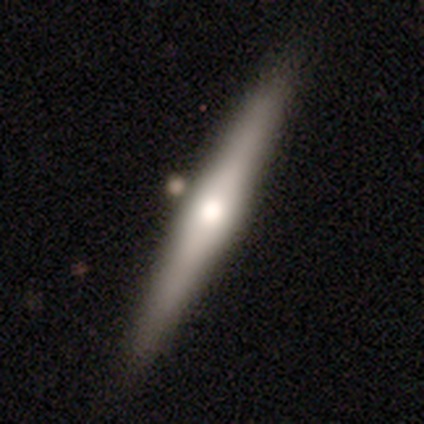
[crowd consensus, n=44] Smooth or featured: featured or disk — 50% (smooth — 41%)
Edge-on disk: yes — 100%
Edge-on bulge: rounded — 91% (boxy — 5%)
Merging: none — 85% (minor disturbance — 10%)